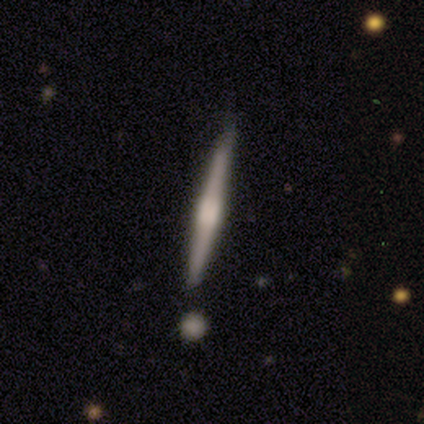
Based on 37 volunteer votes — This appears to be a featured or disk galaxy (76%) viewed edge-on (100%) with a boxy central bulge (46%). Merging: none (97%).